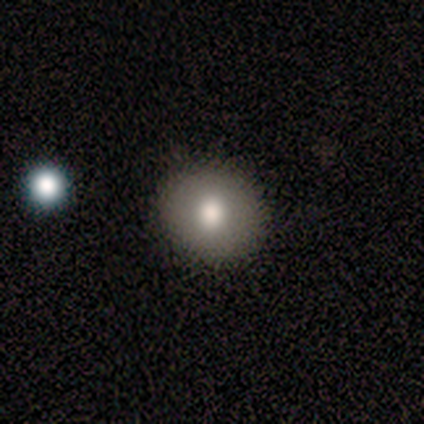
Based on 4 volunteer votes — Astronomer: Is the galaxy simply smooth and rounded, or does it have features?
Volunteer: smooth — 50%, tied with featured or disk at 50%.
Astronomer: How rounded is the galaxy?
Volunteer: round — 50%, tied with in between at 50%.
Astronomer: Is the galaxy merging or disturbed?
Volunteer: none — 100%.